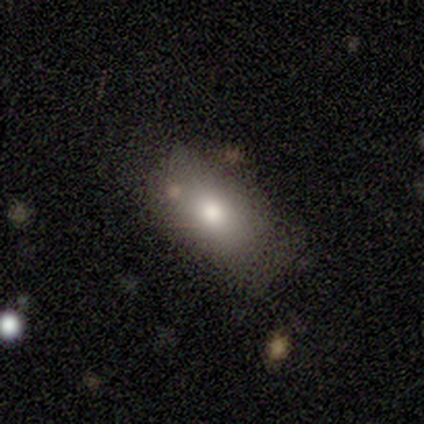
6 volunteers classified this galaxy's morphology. A smooth galaxy with no disk features (100%) that is in between round and cigar-shaped (100%).

Vote fractions:
- Smooth or featured? smooth: 100% / featured or disk: 0% / star or artifact: 0%
- How rounded? in between: 100% / round: 0% / cigar-shaped: 0%
- Merging? none: 83% / minor disturbance: 17% / major disturbance: 0% / merger: 0%